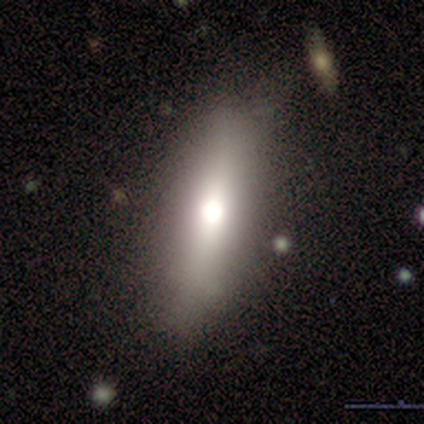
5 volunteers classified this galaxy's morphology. Smooth or featured? 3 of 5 (60%) said smooth. How rounded? 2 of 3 (67%) said in between. Merging? 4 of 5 (80%) said none.